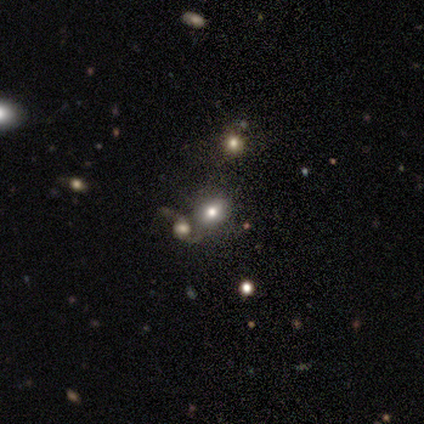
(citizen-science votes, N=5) This is likely a star or artifact rather than a galaxy (60%).